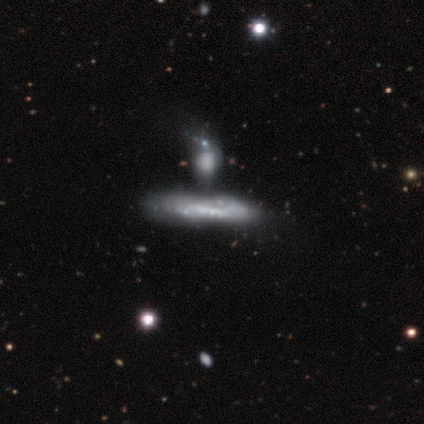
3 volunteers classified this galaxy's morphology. smooth_or_featured: smooth (p=0.67) [alt: featured or disk p=0.33]
how_rounded: cigar-shaped (p=1.00)
merging: none (p=0.33) [tied with: major disturbance p=0.33, merger p=0.33]